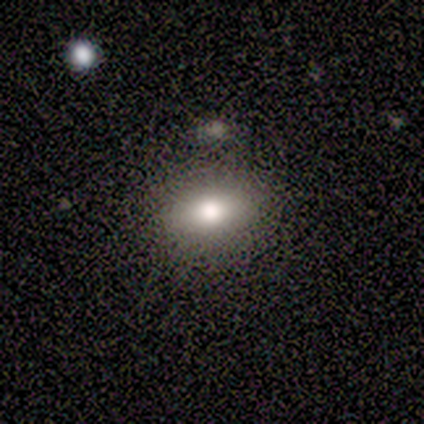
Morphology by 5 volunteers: smooth_or_featured: smooth (p=0.60) [alt: featured or disk p=0.20]
how_rounded: in between (p=0.67) [alt: round p=0.33]
merging: none (p=1.00)